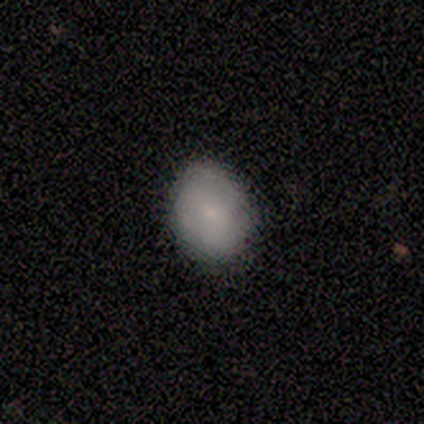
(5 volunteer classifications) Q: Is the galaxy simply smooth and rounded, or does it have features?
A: smooth — 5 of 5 (100%).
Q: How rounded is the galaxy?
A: in between — 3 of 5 (60%).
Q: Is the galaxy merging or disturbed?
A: none — 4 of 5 (80%).